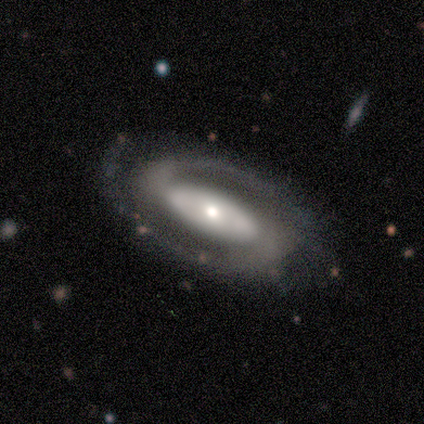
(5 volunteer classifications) This appears to be a featured or disk galaxy (100%) with a strong bar (40%, tied with weak), 2 (100%) tight (60%) spiral arms (100%) and a moderate central bulge (60%). Merging: none (80%).